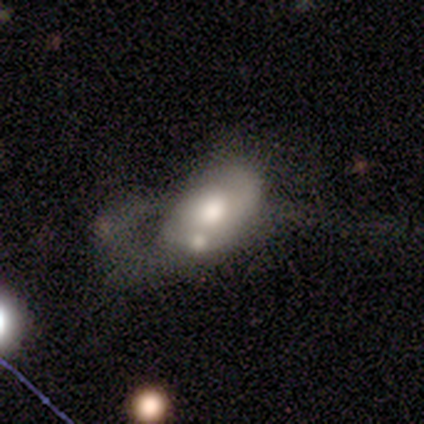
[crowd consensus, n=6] A smooth galaxy with no disk features (33%, tied with featured or disk and star or artifact) that is in between round and cigar-shaped (100%).

Vote fractions:
- Smooth or featured? smooth: 33% (tied) / featured or disk: 33% (tied) / star or artifact: 33% (tied)
- How rounded? in between: 100% / round: 0% / cigar-shaped: 0%
- Merging? none: 50% / major disturbance: 25% / merger: 25% / minor disturbance: 0%